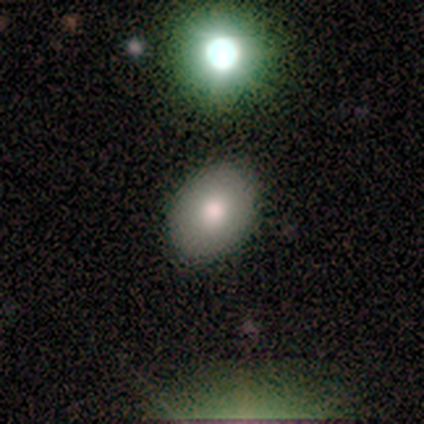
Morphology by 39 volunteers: smooth_or_featured: smooth (p=0.85) [alt: featured or disk p=0.10]
how_rounded: in between (p=0.73) [alt: round p=0.24]
merging: none (p=0.81) [alt: minor disturbance p=0.11]